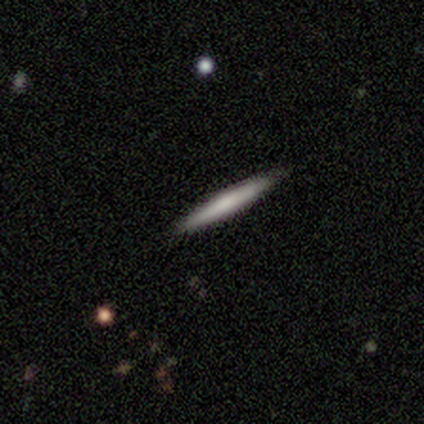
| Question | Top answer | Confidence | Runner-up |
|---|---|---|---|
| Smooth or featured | smooth | 50% | featured or disk (38%) |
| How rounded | cigar-shaped | 100% | — |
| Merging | none | 71% | minor disturbance (14%) |